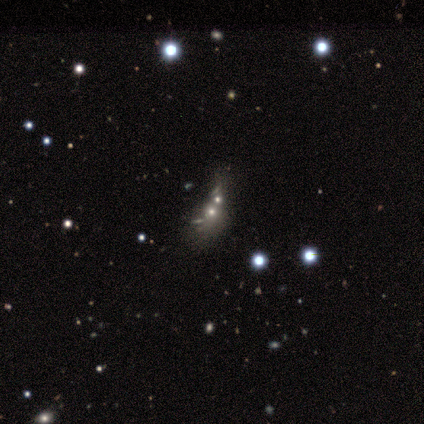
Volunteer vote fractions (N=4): This appears to be a star or artifact, not a galaxy (75%).